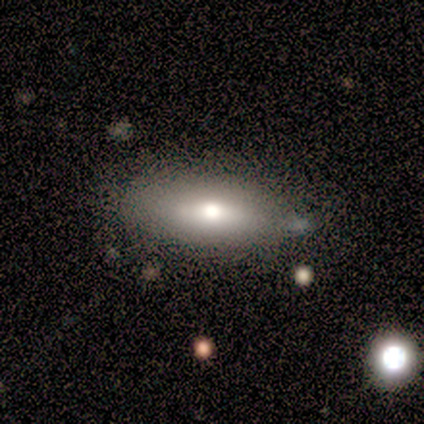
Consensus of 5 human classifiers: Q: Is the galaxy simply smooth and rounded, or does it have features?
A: smooth — 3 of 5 (60%).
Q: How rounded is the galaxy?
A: in between — 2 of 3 (67%).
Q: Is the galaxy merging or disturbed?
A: none — 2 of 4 (50%, tied with minor disturbance).